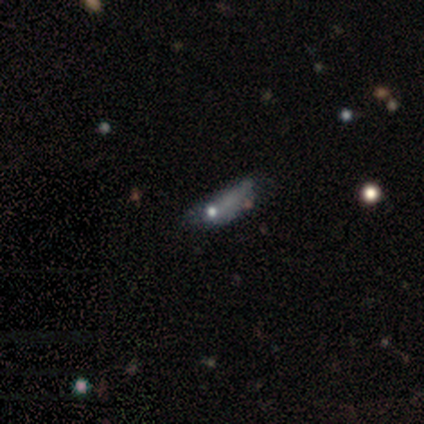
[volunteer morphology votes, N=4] Volunteers were most divided on "smooth or featured": smooth: 50%, featured or disk: 25%, star or artifact: 25%. More confident: how rounded — cigar-shaped (100%); merging — major disturbance (67%).